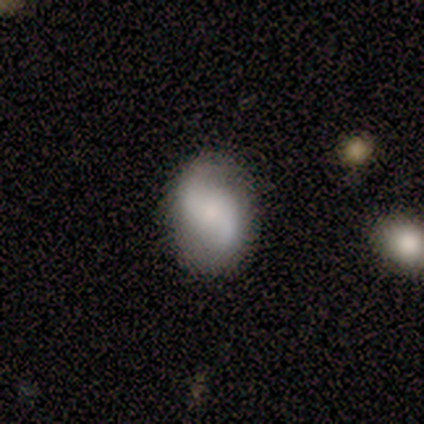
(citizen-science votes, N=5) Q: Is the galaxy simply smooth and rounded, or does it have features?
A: featured or disk — 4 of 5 (80%).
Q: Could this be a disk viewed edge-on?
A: no — 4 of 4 (100%).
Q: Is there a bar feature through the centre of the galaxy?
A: weak — 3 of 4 (75%).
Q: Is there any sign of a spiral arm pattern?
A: yes — 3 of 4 (75%).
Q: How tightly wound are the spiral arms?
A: loose — 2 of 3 (67%).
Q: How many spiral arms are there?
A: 2 — 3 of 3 (100%).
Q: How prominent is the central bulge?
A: small — 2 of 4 (50%).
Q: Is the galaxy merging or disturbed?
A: none — 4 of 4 (100%).